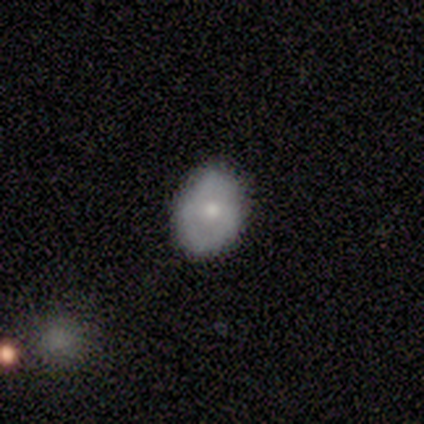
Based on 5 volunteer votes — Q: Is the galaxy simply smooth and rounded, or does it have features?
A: smooth — 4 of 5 (80%).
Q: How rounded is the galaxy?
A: in between — 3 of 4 (75%).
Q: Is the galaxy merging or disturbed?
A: none — 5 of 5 (100%).